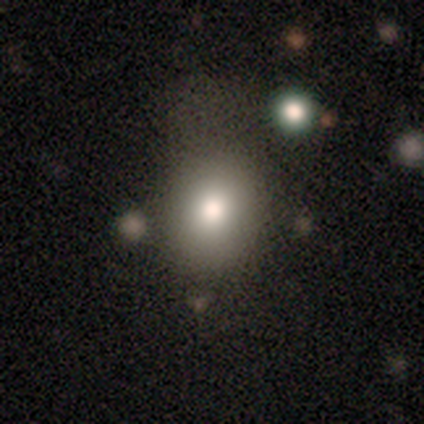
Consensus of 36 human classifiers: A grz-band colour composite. It shows a smooth galaxy with no disk features (61%) that is round (68%). Merging: none (57%).